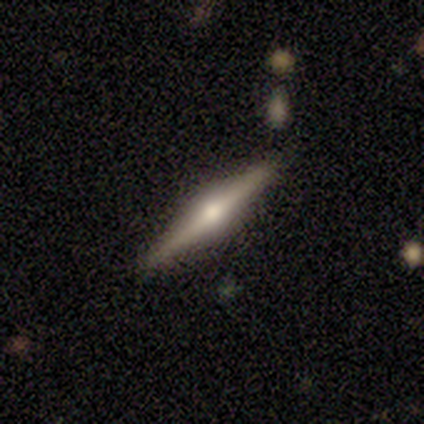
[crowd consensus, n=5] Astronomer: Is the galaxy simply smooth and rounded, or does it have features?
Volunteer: featured or disk — 100%.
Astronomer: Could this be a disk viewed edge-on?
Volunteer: yes — 100%.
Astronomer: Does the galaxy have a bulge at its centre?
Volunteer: rounded — 100%.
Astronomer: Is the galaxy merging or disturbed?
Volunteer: none — 100%.